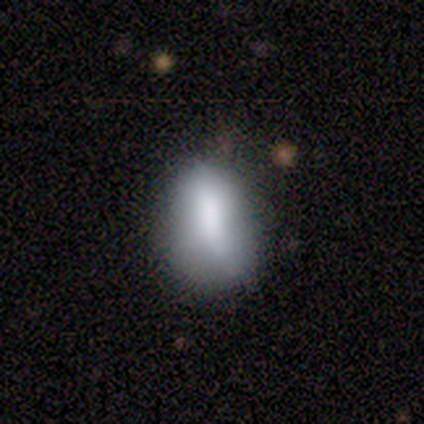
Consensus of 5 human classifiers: A smooth galaxy with no disk features (60%) that is in between round and cigar-shaped (100%). Merging: none (100%).